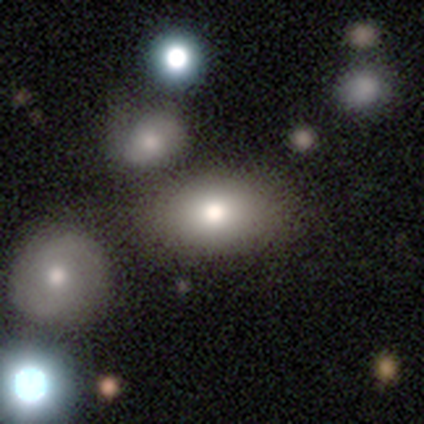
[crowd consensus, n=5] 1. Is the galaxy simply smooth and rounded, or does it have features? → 80% smooth, 20% featured or disk, 0% star or artifact.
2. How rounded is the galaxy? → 75% in between, 25% round, 0% cigar-shaped.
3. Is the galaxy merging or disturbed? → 60% none, 40% minor disturbance, 0% major disturbance, 0% merger.